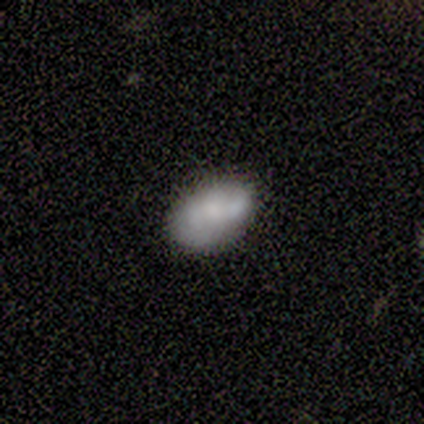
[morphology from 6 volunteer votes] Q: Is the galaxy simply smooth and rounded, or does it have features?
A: smooth — 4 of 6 (67%).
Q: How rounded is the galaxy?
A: in between — 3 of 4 (75%).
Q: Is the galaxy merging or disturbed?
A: minor disturbance — 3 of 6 (50%).